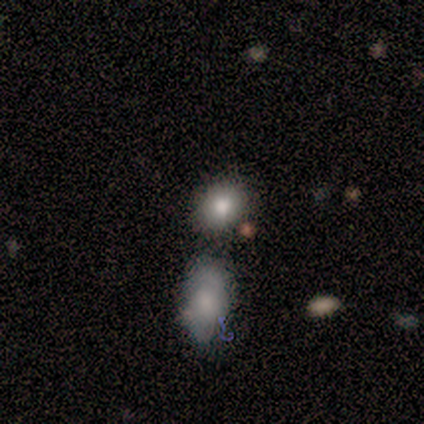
smooth-or-featured: smooth: 83% | featured or disk: 8% | star or artifact: 8%
  how-rounded: in between: 60% | round: 40% | cigar-shaped: 0%
  merging: none: 45% | minor disturbance: 27% | merger: 18% | major disturbance: 9%